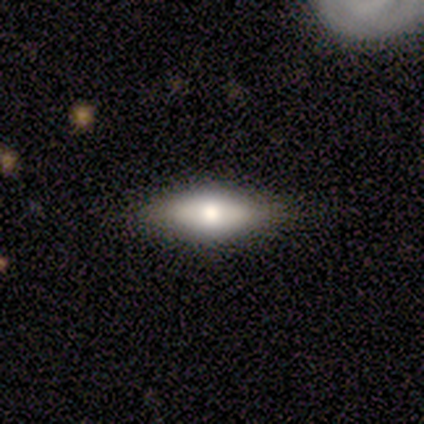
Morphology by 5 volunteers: type=featured or disk (60%); edge-on=no (67%); bar=no (100%); spiral arms=no (100%); bulge=moderate (100%); merging=none (100%).